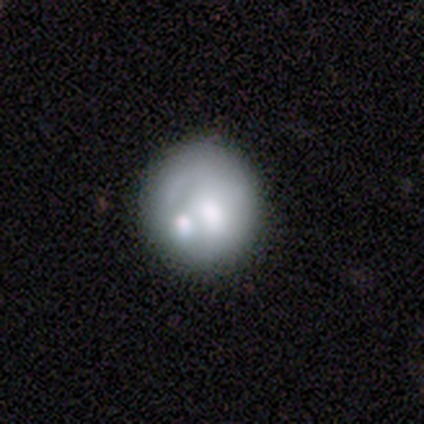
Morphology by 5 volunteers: Smooth or featured: featured or disk — 60% (smooth — 20%)
Edge-on disk: no — 100%
Bar: no — 100%
Spiral arms: no — 100%
Bulge size: none — 67% (small — 33%)
Merging: none — 75% (merger — 25%)